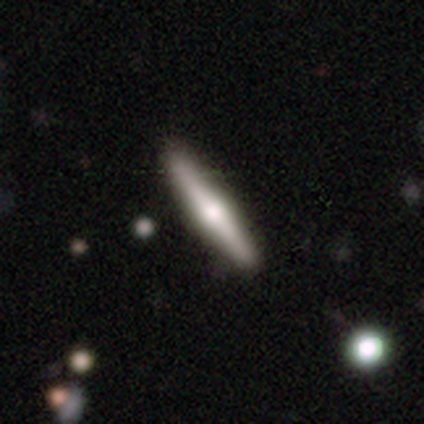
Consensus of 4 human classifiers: Smooth or featured? smooth (50%, tied with featured or disk)
How rounded? cigar-shaped (100%)
Merging? none (100%)